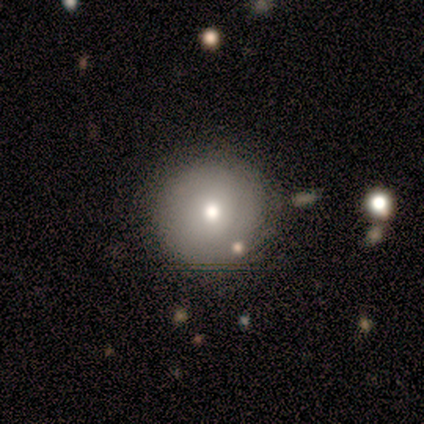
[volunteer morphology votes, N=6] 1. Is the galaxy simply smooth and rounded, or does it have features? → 100% smooth, 0% featured or disk, 0% star or artifact.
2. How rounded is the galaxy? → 100% round, 0% in between, 0% cigar-shaped.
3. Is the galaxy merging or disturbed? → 67% none, 33% major disturbance, 0% minor disturbance, 0% merger.